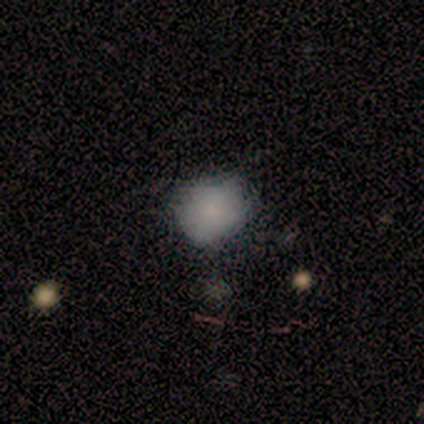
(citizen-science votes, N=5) Q: Smooth or featured?
A: smooth (100%)
Q: How rounded?
A: in between (60%); runner-up: round (40%)
Q: Merging?
A: none (60%); runner-up: minor disturbance (20%)